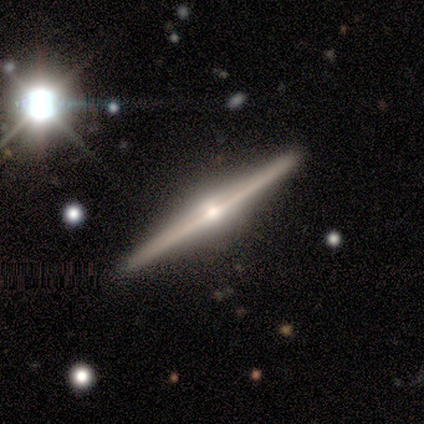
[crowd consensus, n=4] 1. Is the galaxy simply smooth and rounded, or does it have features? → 100% featured or disk, 0% smooth, 0% star or artifact.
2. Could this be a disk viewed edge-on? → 100% yes, 0% no.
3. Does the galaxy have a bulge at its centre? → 75% rounded, 25% none, 0% boxy.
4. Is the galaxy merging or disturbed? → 100% none, 0% minor disturbance, 0% major disturbance, 0% merger.